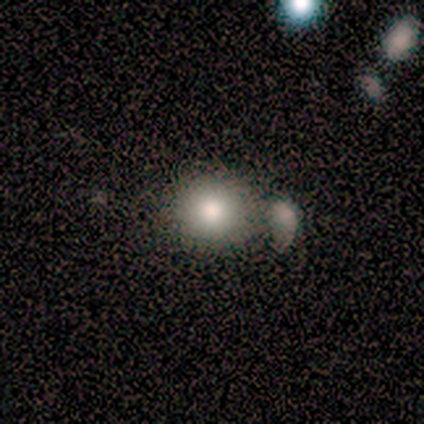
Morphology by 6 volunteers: type=smooth (100%); roundness=round (100%); merging=none (83%).